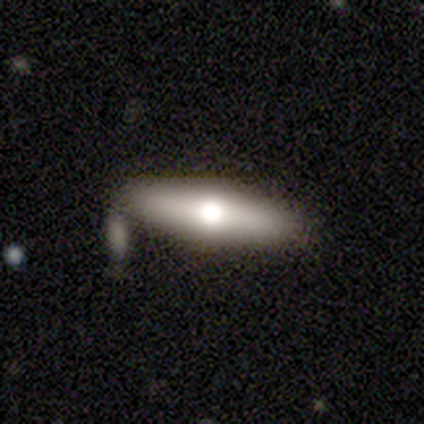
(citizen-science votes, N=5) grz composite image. It shows a featured or disk galaxy (80%) viewed edge-on (100%) with a rounded central bulge (100%). Merging: none (100%).